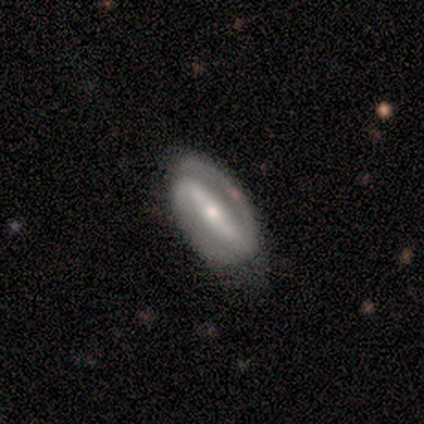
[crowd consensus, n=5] Overall: featured or disk (80%). Edge-on disk: no (100%). Bar: strong (75%). Spiral arms: yes (100%). Spiral arm count: 2 (100%). Spiral winding: tight (75%). Bulge size: moderate (50%; large 25%). Merging: none (80%).